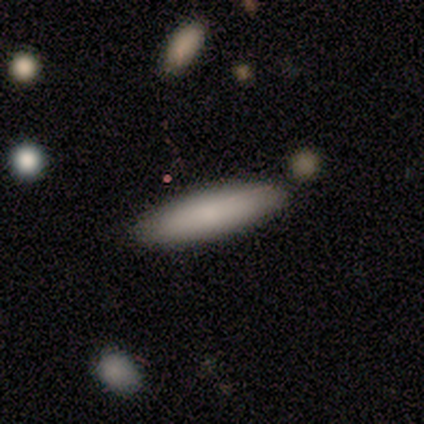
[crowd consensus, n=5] smooth_or_featured: smooth (p=1.00)
how_rounded: cigar-shaped (p=0.80) [alt: in between p=0.20]
merging: none (p=0.80) [alt: minor disturbance p=0.20]